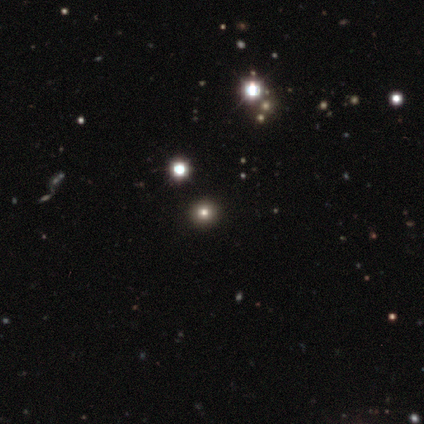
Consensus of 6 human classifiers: Overall: smooth (50%; star or artifact 33%). How rounded: round (100%). Merging: none (100%).